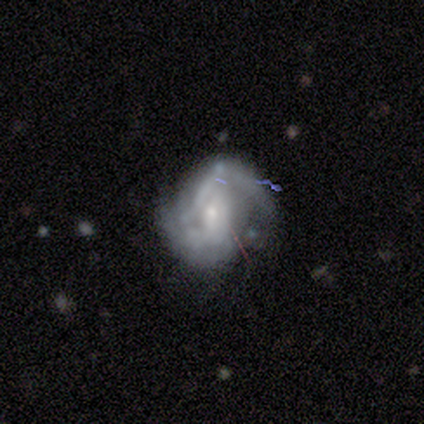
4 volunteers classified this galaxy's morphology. Smooth or featured?
  - featured or disk: 75% *
  - star or artifact: 25%
  - smooth: 0%
Edge-on disk?
  - no: 100% *
  - yes: 0%
Bar?
  - no: 100% *
  - strong: 0%
  - weak: 0%
Spiral arms?
  - yes: 100% *
  - no: 0%
Spiral winding?
  - tight: 33% * (tied)
  - medium: 33% * (tied)
  - loose: 33% * (tied)
Spiral arm count?
  - can't tell: 67% *
  - 2: 33%
  - 1: 0%
  - 3: 0%
  - 4: 0%
  - more than 4: 0%
Bulge size?
  - small: 67% *
  - none: 33%
  - dominant: 0%
  - large: 0%
  - moderate: 0%
Merging?
  - none: 67% *
  - major disturbance: 33%
  - minor disturbance: 0%
  - merger: 0%